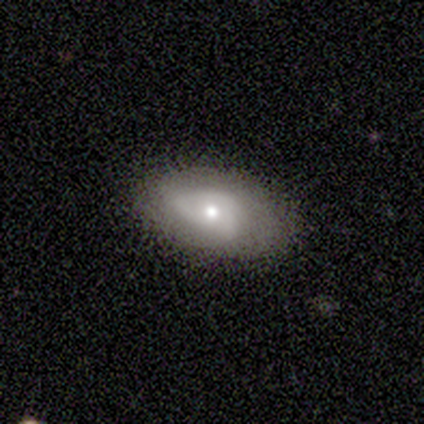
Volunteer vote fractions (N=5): Smooth or featured?
  - smooth: 80% *
  - featured or disk: 20%
  - star or artifact: 0%
How rounded?
  - in between: 100% *
  - round: 0%
  - cigar-shaped: 0%
Merging?
  - none: 100% *
  - minor disturbance: 0%
  - major disturbance: 0%
  - merger: 0%